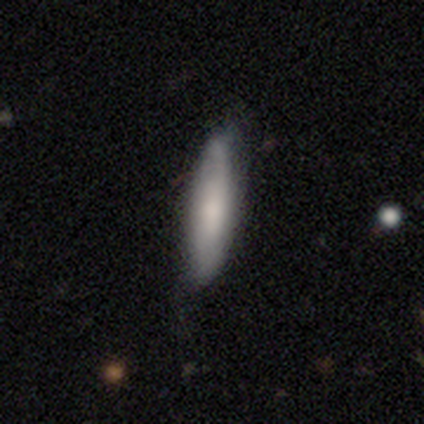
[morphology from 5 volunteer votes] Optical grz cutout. It shows a smooth galaxy with no disk features (80%) that is in between round and cigar-shaped (75%). Merging: none (60%).